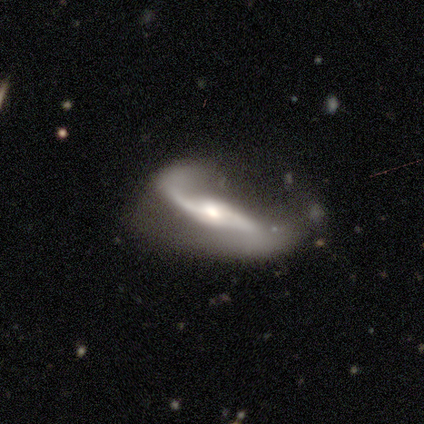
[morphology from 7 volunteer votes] A featured or disk galaxy (100%) with a strong bar (50%), 2 (67%) loose (67%) spiral arms (100%) and a moderate central bulge (67%). Merging: major disturbance (57%).